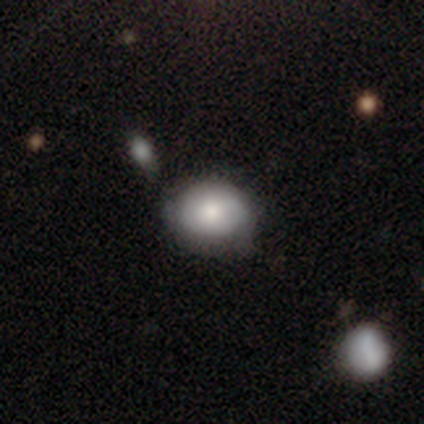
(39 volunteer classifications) smooth-or-featured: smooth: 79% | featured or disk: 21% | star or artifact: 0%
  how-rounded: round: 55% | in between: 45% | cigar-shaped: 0%
  merging: none: 64% | minor disturbance: 26% | merger: 8% | major disturbance: 3%